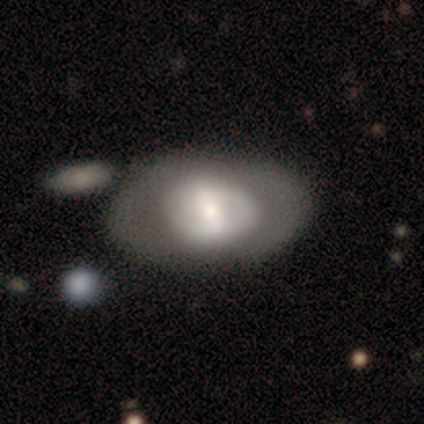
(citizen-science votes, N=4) Q: Smooth or featured?
A: featured or disk (100%)
Q: Edge-on disk?
A: no (100%)
Q: Bar?
A: weak (75%); runner-up: no (25%)
Q: Spiral arms?
A: no (75%); runner-up: yes (25%)
Q: Bulge size?
A: moderate (50%); tied with: small (50%)
Q: Merging?
A: none (75%); runner-up: merger (25%)